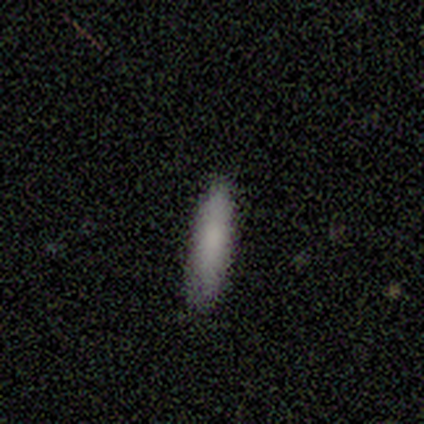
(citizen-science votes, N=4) Smooth or featured? 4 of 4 (100%) said smooth. How rounded? 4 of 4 (100%) said cigar-shaped. Merging? 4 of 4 (100%) said none.